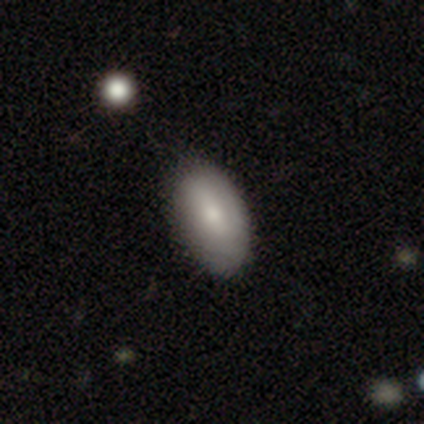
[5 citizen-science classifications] Smooth or featured: smooth — 80% (featured or disk — 20%)
How rounded: in between — 100%
Merging: none — 60% (minor disturbance — 20%)